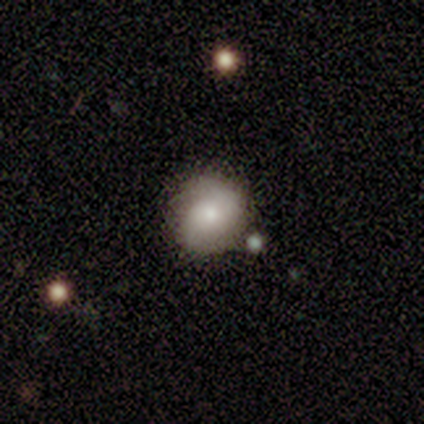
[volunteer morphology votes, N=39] Smooth or featured?
  - smooth: 64% *
  - featured or disk: 33%
  - star or artifact: 3%
How rounded?
  - round: 92% *
  - in between: 8%
  - cigar-shaped: 0%
Merging?
  - none: 63% *
  - minor disturbance: 26%
  - major disturbance: 5%
  - merger: 5%